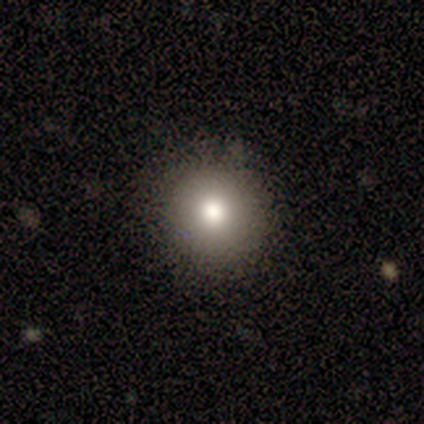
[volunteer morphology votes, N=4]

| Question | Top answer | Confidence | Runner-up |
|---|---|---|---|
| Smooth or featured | smooth | 75% | featured or disk (25%) |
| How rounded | round | 100% | — |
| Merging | none | 100% | — |